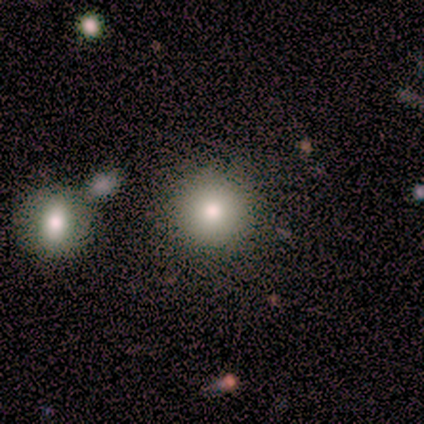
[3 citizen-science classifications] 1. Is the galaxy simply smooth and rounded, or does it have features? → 100% smooth, 0% featured or disk, 0% star or artifact.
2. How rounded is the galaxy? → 100% round, 0% in between, 0% cigar-shaped.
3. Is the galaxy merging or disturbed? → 100% none, 0% minor disturbance, 0% major disturbance, 0% merger.